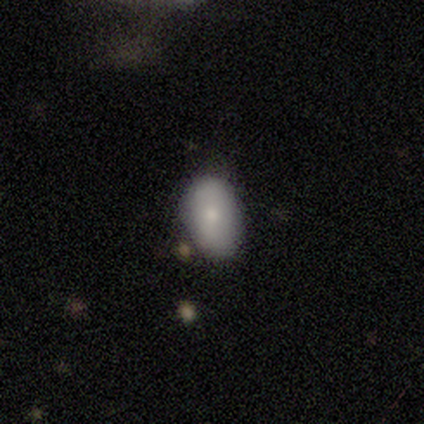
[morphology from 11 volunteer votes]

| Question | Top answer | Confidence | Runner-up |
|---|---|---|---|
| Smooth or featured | smooth | 55% | featured or disk (45%) |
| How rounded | in between | 100% | — |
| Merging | none | 45% | minor disturbance (36%) |